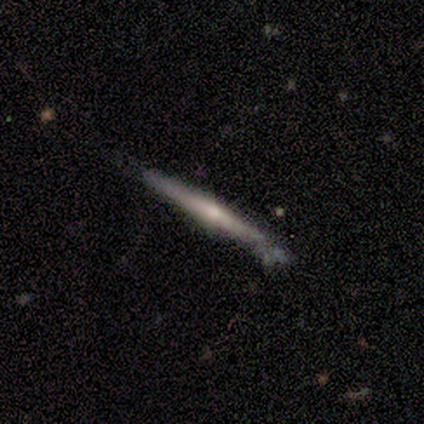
Volunteers were most divided on "edge-on bulge" (2-way tie): none: 50%, rounded: 50%, boxy: 0%; "merging" (2-way tie): none: 50%, minor disturbance: 50%, major disturbance: 0%, merger: 0%. More confident: smooth or featured — featured or disk (100%); edge-on disk — yes (100%).